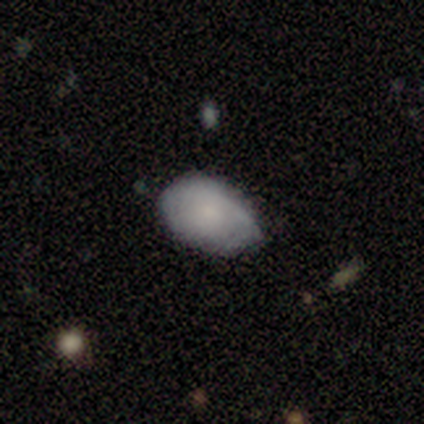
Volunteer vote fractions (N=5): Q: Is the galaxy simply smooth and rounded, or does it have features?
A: smooth — 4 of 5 (80%).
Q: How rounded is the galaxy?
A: in between — 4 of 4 (100%).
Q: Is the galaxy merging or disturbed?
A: none — 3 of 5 (60%).